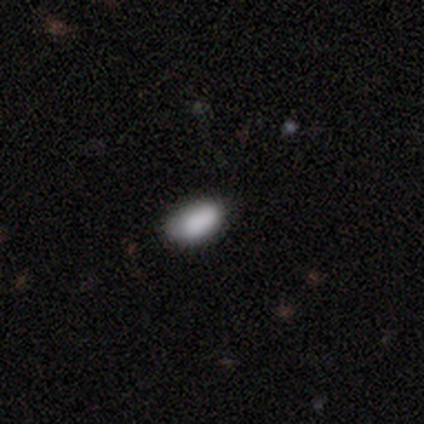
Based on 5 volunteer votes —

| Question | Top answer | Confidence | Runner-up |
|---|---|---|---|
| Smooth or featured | smooth | 100% | — |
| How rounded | in between | 100% | — |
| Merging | none | 60% | minor disturbance (40%) |